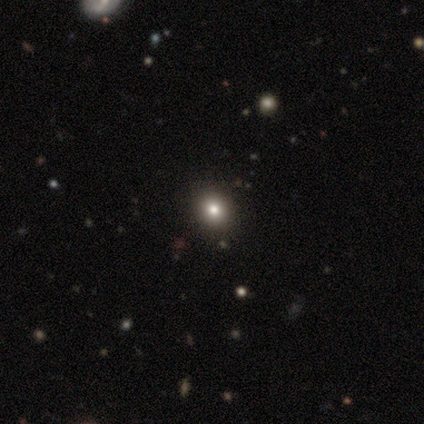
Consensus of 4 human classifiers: A smooth galaxy with no disk features (75%) that is round (100%). Merging: none (67%).